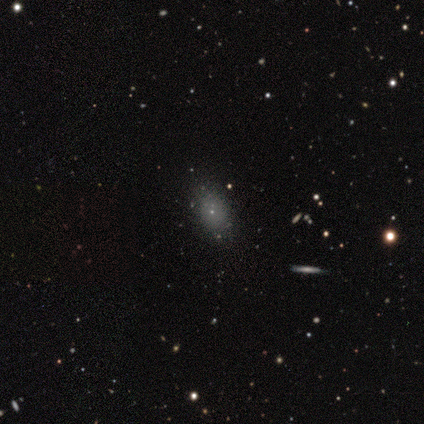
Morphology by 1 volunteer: Consensus on every question: smooth or featured — smooth (100%); how rounded — in between (100%); merging — none (100%).